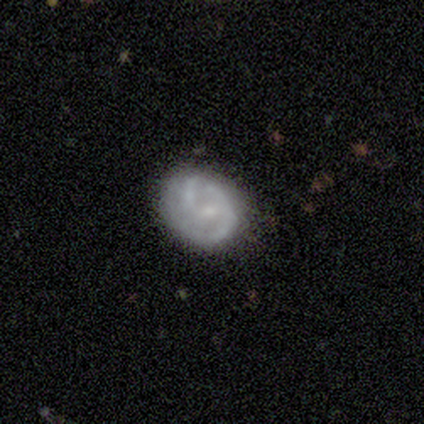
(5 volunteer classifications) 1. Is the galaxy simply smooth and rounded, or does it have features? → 60% featured or disk, 40% smooth, 0% star or artifact.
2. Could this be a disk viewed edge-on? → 67% no, 33% yes.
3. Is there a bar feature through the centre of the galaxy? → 100% no, 0% strong, 0% weak.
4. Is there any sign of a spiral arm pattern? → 100% yes, 0% no.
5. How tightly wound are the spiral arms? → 100% tight, 0% medium, 0% loose.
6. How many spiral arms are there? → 50% 2 (tied), 50% can't tell (tied), 0% 1, 0% 3, 0% 4, 0% more than 4.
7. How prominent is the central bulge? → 50% small (tied), 50% none (tied), 0% dominant, 0% large, 0% moderate.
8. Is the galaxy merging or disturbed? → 80% none, 20% minor disturbance, 0% major disturbance, 0% merger.